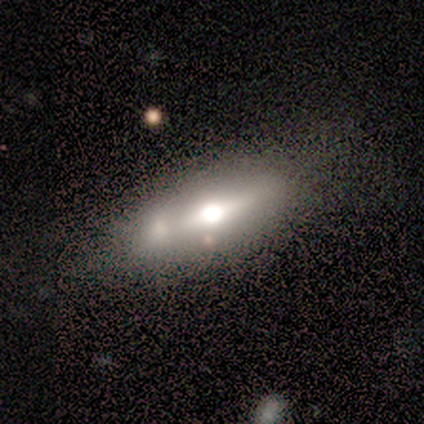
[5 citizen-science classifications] smooth-or-featured: smooth: 60% | featured or disk: 20% | star or artifact: 20%
  how-rounded: in between: 67% | cigar-shaped: 33% | round: 0%
  merging: none: 50% | major disturbance: 25% | merger: 25% | minor disturbance: 0%